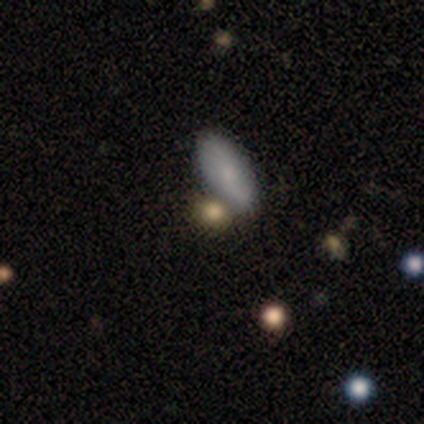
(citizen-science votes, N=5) Volunteers were most divided on "smooth or featured" (2-way tie): smooth: 40%, featured or disk: 40%, star or artifact: 20%; "how rounded" (2-way tie): round: 50%, in between: 50%, cigar-shaped: 0%. More confident: merging — none (75%).